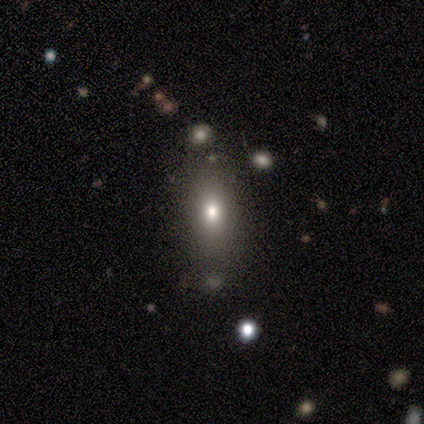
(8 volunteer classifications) Smooth or featured? 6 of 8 (75%) said smooth. How rounded? 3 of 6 (50%) said cigar-shaped. Merging? 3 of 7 (43%, tied with minor disturbance) said none.